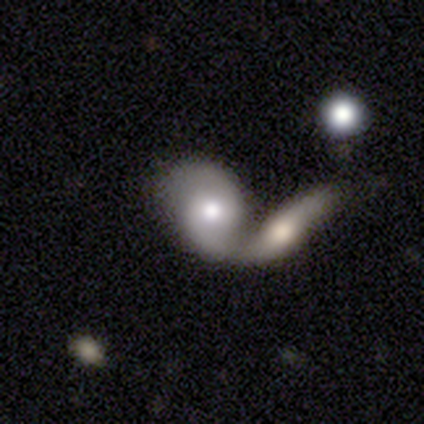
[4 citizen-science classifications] Overall: smooth (50%, tied with featured or disk). How rounded: in between (100%). Merging: merger (50%; minor disturbance 25%).